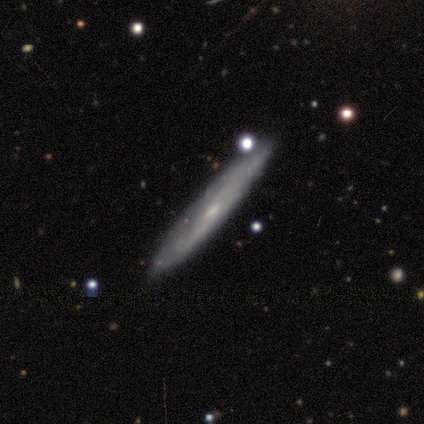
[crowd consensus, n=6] Smooth or featured?
  - featured or disk: 67% *
  - smooth: 33%
  - star or artifact: 0%
Edge-on disk?
  - no: 75% *
  - yes: 25%
Bar?
  - weak: 67% *
  - no: 33%
  - strong: 0%
Spiral arms?
  - yes: 67% *
  - no: 33%
Spiral winding?
  - loose: 100% *
  - tight: 0%
  - medium: 0%
Spiral arm count?
  - 3: 50% * (tied)
  - can't tell: 50% * (tied)
  - 1: 0%
  - 2: 0%
  - 4: 0%
  - more than 4: 0%
Bulge size?
  - moderate: 33% * (tied)
  - small: 33% * (tied)
  - none: 33% * (tied)
  - dominant: 0%
  - large: 0%
Merging?
  - none: 67% *
  - minor disturbance: 17%
  - major disturbance: 17%
  - merger: 0%